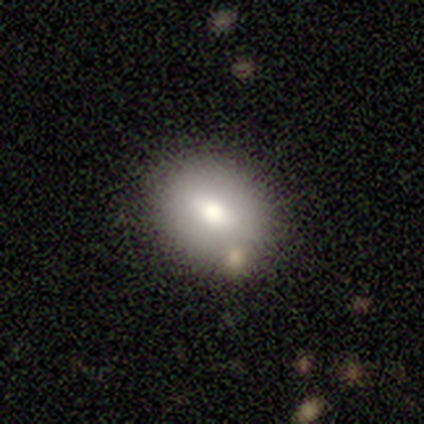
A smooth galaxy with no disk features (80%) that is in between round and cigar-shaped (75%). Merging: none (100%).